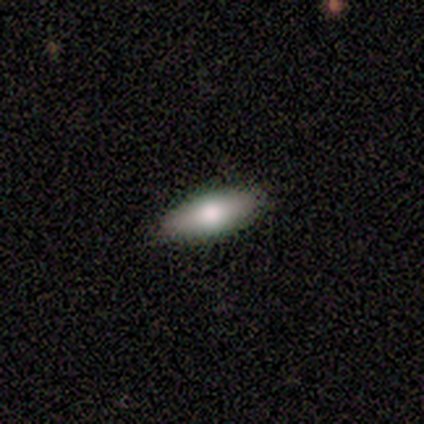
Smooth or featured: smooth — 100%
How rounded: in between — 60% (cigar-shaped — 40%)
Merging: none — 100%